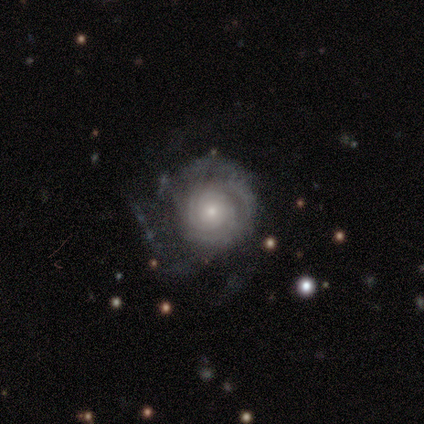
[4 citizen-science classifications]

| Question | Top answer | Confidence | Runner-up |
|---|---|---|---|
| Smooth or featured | featured or disk | 75% | star or artifact (25%) |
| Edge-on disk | no | 100% | — |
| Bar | no | 100% | — |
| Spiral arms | yes | 100% | — |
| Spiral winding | tight | 100% | — |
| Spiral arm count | can't tell | 67% | 3 (33%) |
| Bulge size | small | 100% | — |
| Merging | none | 33% | tied: minor disturbance (33%), major disturbance (33%) |